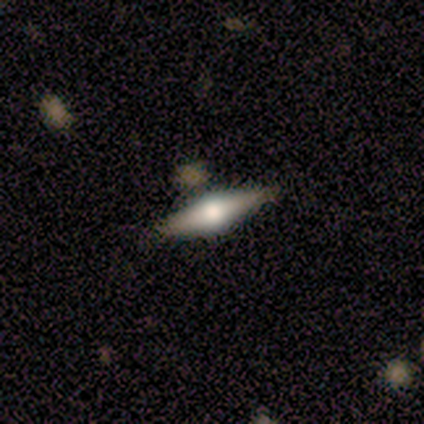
A featured or disk galaxy (75%) viewed edge-on (100%) with a rounded central bulge (100%).

Vote fractions:
- Smooth or featured? featured or disk: 75% / smooth: 25% / star or artifact: 0%
- Edge-on disk? yes: 100% / no: 0%
- Edge-on bulge? rounded: 100% / boxy: 0% / none: 0%
- Merging? none: 100% / minor disturbance: 0% / major disturbance: 0% / merger: 0%